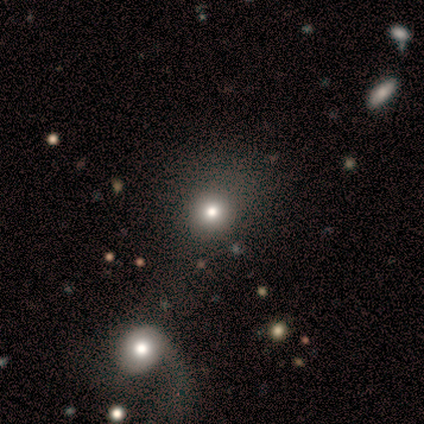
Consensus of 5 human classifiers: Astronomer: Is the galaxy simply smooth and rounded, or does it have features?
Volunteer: smooth — 40%, tied with star or artifact at 40%.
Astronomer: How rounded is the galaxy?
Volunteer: round — 100%.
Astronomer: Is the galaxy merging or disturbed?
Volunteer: none — 67%.